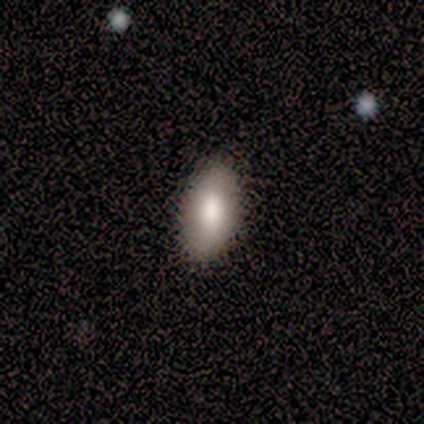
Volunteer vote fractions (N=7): This appears to be a smooth galaxy with no disk features (86%) that is in between round and cigar-shaped (100%). Merging: none (86%).